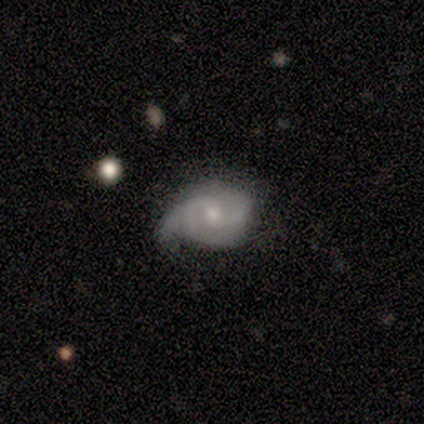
Smooth or featured?
  - featured or disk: 66% *
  - smooth: 28%
  - star or artifact: 7%
Edge-on disk?
  - no: 100% *
  - yes: 0%
Bar?
  - weak: 53% *
  - no: 42%
  - strong: 5%
Spiral arms?
  - yes: 89% *
  - no: 11%
Spiral winding?
  - tight: 53% *
  - medium: 24%
  - loose: 24%
Spiral arm count?
  - 2: 41% *
  - can't tell: 24%
  - 1: 18%
  - 3: 18%
  - 4: 0%
  - more than 4: 0%
Bulge size?
  - small: 47% *
  - moderate: 42%
  - large: 5%
  - none: 5%
  - dominant: 0%
Merging?
  - minor disturbance: 48% *
  - none: 37%
  - major disturbance: 15%
  - merger: 0%